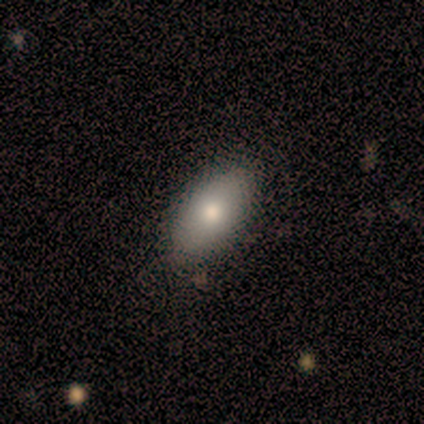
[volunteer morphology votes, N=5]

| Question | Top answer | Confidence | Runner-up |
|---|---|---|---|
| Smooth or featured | smooth | 100% | — |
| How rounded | in between | 80% | round (20%) |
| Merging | none | 80% | merger (20%) |